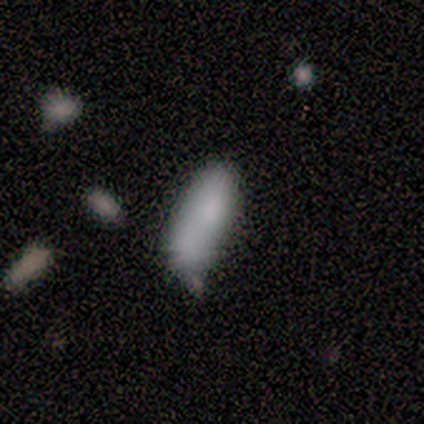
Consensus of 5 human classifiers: Q: Smooth or featured?
A: smooth (80%); runner-up: star or artifact (20%)
Q: How rounded?
A: in between (50%); tied with: cigar-shaped (50%)
Q: Merging?
A: minor disturbance (75%); runner-up: none (25%)